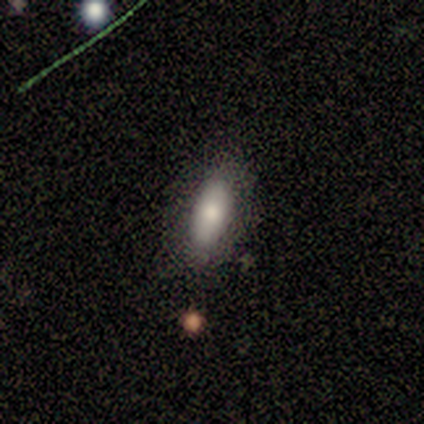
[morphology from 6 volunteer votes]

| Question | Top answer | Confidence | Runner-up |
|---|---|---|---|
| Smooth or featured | smooth | 67% | featured or disk (33%) |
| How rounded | in between | 100% | — |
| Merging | none | 100% | — |